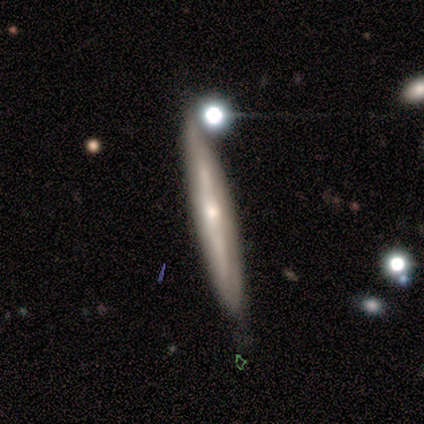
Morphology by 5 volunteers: Smooth or featured?
  - smooth: 80% *
  - featured or disk: 20%
  - star or artifact: 0%
How rounded?
  - cigar-shaped: 100% *
  - round: 0%
  - in between: 0%
Merging?
  - none: 60% *
  - merger: 40%
  - minor disturbance: 0%
  - major disturbance: 0%